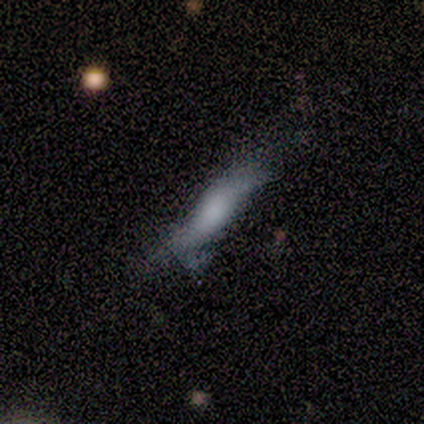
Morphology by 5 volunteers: Smooth or featured? smooth (80%)
How rounded? cigar-shaped (100%)
Merging? minor disturbance (60%)